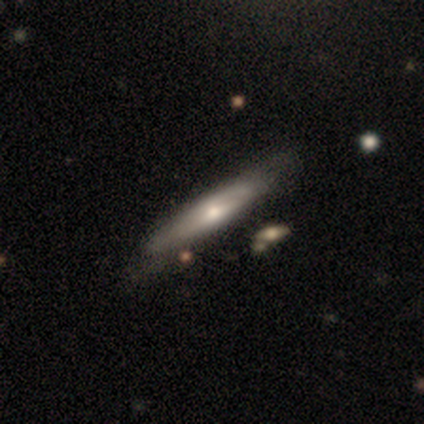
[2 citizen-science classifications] smooth-or-featured: smooth: 100% | featured or disk: 0% | star or artifact: 0%
  how-rounded: in between: 50% (tied) | cigar-shaped: 50% (tied) | round: 0%
  merging: none: 100% | minor disturbance: 0% | major disturbance: 0% | merger: 0%